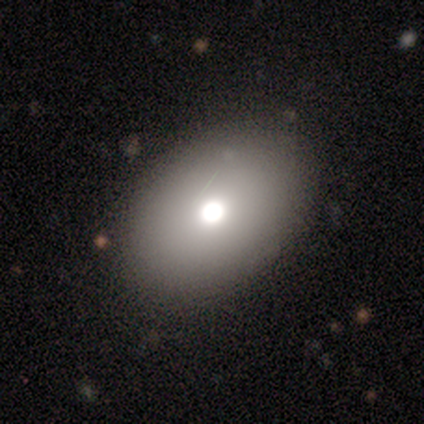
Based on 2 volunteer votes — smooth-or-featured: smooth: 100% | featured or disk: 0% | star or artifact: 0%
  how-rounded: in between: 100% | round: 0% | cigar-shaped: 0%
  merging: none: 100% | minor disturbance: 0% | major disturbance: 0% | merger: 0%